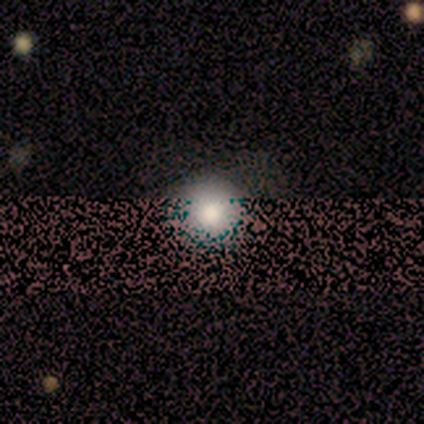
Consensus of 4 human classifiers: A smooth galaxy with no disk features (75%) that is round (100%).

Vote fractions:
- Smooth or featured? smooth: 75% / star or artifact: 25% / featured or disk: 0%
- How rounded? round: 100% / in between: 0% / cigar-shaped: 0%
- Merging? none: 100% / minor disturbance: 0% / major disturbance: 0% / merger: 0%